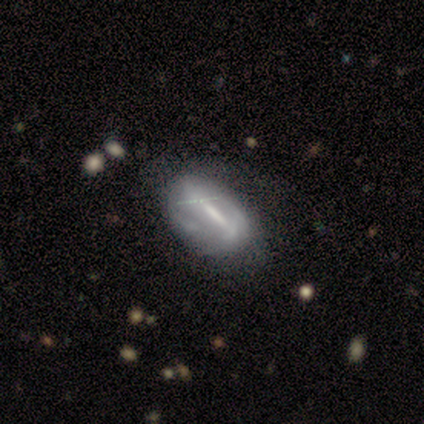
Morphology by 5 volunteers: smooth_or_featured: featured or disk (p=0.60) [alt: smooth p=0.40]
disk_edge_on: no (p=1.00)
bar: strong (p=0.67) [alt: weak p=0.33]
has_spiral_arms: yes (p=1.00)
spiral_winding: medium (p=0.67) [alt: tight p=0.33]
spiral_arm_count: 2 (p=0.67) [alt: can't tell p=0.33]
bulge_size: moderate (p=0.67) [alt: none p=0.33]
merging: none (p=0.40) [tied with: major disturbance p=0.40]